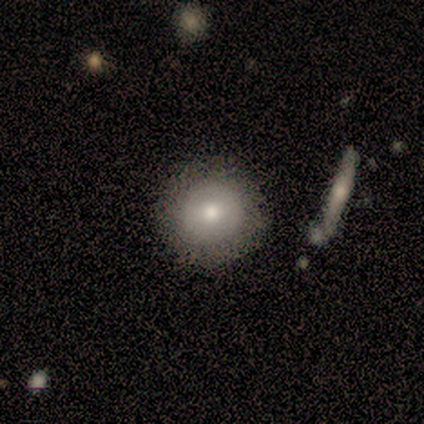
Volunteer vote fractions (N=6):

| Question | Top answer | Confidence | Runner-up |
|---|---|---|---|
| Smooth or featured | smooth | 67% | featured or disk (33%) |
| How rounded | round | 100% | — |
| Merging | none | 83% | minor disturbance (17%) |